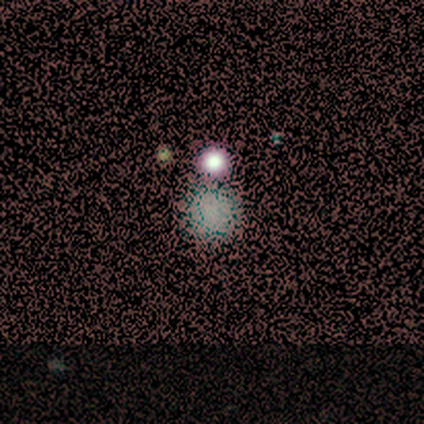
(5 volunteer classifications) Smooth or featured: smooth — 40% (tied with star or artifact — 40%)
How rounded: round — 100%
Merging: none — 67% (merger — 33%)